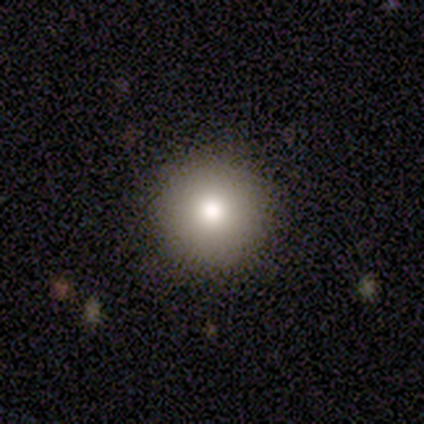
smooth-or-featured: smooth: 85% | star or artifact: 10% | featured or disk: 5%
  how-rounded: round: 100% | in between: 0% | cigar-shaped: 0%
  merging: none: 94% | major disturbance: 6% | minor disturbance: 0% | merger: 0%